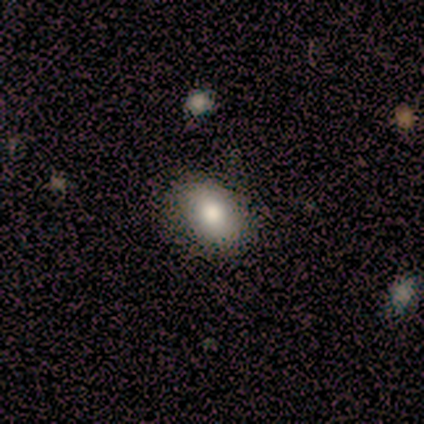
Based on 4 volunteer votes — Smooth or featured?
  - smooth: 75% *
  - featured or disk: 25%
  - star or artifact: 0%
How rounded?
  - in between: 67% *
  - round: 33%
  - cigar-shaped: 0%
Merging?
  - none: 100% *
  - minor disturbance: 0%
  - major disturbance: 0%
  - merger: 0%